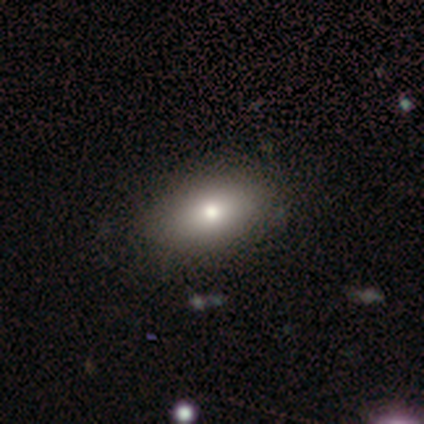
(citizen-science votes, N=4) A smooth galaxy with no disk features (100%) that is in between round and cigar-shaped (100%).

Vote fractions:
- Smooth or featured? smooth: 100% / featured or disk: 0% / star or artifact: 0%
- How rounded? in between: 100% / round: 0% / cigar-shaped: 0%
- Merging? none: 75% / major disturbance: 25% / minor disturbance: 0% / merger: 0%